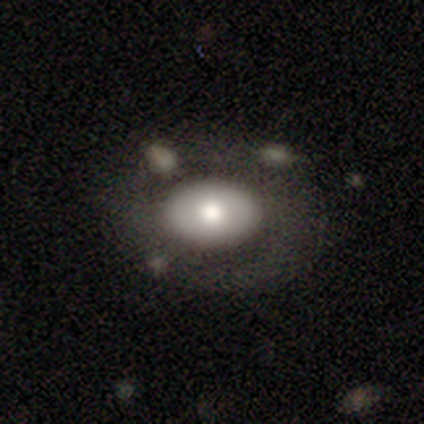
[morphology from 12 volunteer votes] Smooth or featured: featured or disk — 58% (smooth — 42%)
Edge-on disk: no — 100%
Bar: no — 86% (strong — 14%)
Spiral arms: no — 71% (yes — 29%)
Bulge size: moderate — 71% (large — 29%)
Merging: none — 67% (major disturbance — 17%)